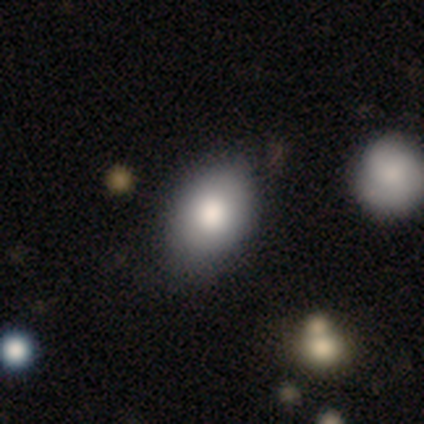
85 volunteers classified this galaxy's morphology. Q: Smooth or featured?
A: smooth (81%); runner-up: featured or disk (12%)
Q: How rounded?
A: in between (87%); runner-up: round (13%)
Q: Merging?
A: none (67%); runner-up: minor disturbance (27%)